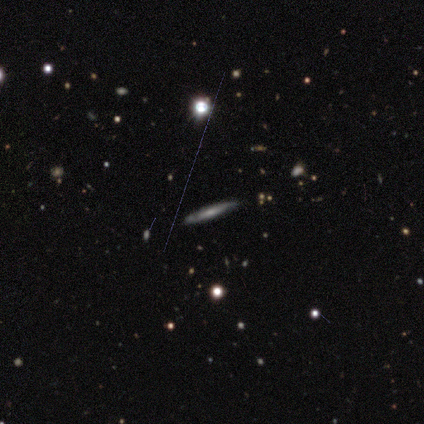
Smooth or featured?
  - featured or disk: 78% *
  - smooth: 11%
  - star or artifact: 11%
Edge-on disk?
  - yes: 100% *
  - no: 0%
Edge-on bulge?
  - none: 71% *
  - rounded: 29%
  - boxy: 0%
Merging?
  - none: 88% *
  - minor disturbance: 12%
  - major disturbance: 0%
  - merger: 0%